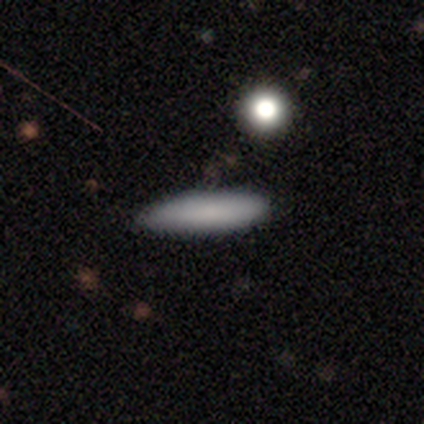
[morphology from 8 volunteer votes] Overall: smooth (88%). How rounded: cigar-shaped (57%; in between 43%). Merging: none (88%).